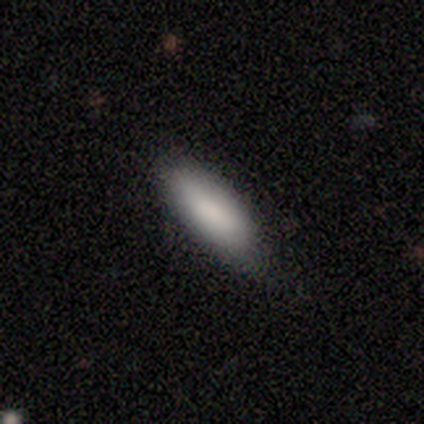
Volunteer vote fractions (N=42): This is clearly a smooth galaxy (88%). How rounded: possibly in between (57%). Merging: likely none (71%).